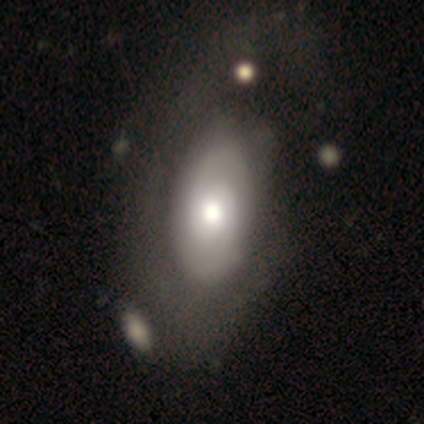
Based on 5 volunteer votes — featured or disk 100%, smooth 0%, star or artifact 0%. Down the decision tree: edge-on disk — no (100%); bar — no (80%); spiral arms — yes (60%); spiral arm count — 2 (67%); spiral winding — tight (100%); bulge size — moderate (40%); merging — merger (40%).